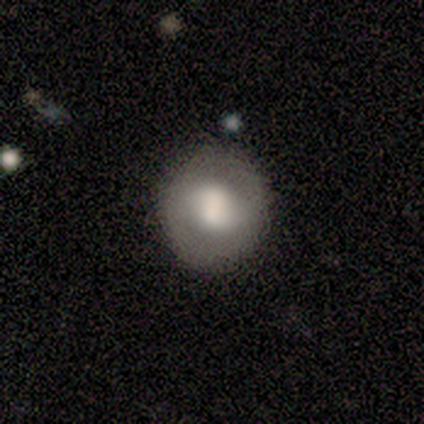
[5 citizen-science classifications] Volunteers were most divided on "smooth or featured": smooth: 60%, featured or disk: 40%, star or artifact: 0%. More confident: how rounded — round (100%); merging — none (100%).